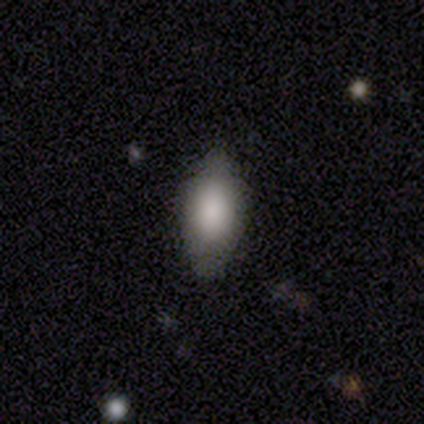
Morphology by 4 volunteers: Smooth or featured?
  - smooth: 75% *
  - featured or disk: 25%
  - star or artifact: 0%
How rounded?
  - in between: 100% *
  - round: 0%
  - cigar-shaped: 0%
Merging?
  - none: 75% *
  - minor disturbance: 25%
  - major disturbance: 0%
  - merger: 0%